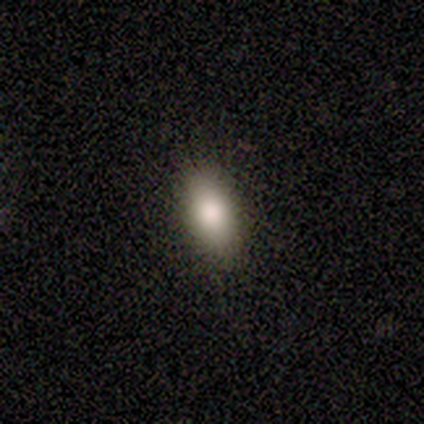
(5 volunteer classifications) Q: Smooth or featured?
A: smooth (100%)
Q: How rounded?
A: in between (100%)
Q: Merging?
A: none (100%)